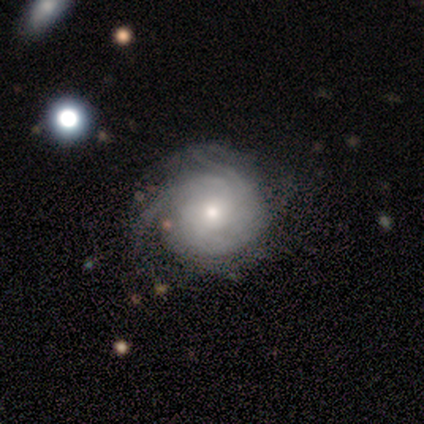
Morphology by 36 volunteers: Smooth or featured?
  - featured or disk: 83% *
  - smooth: 14%
  - star or artifact: 3%
Edge-on disk?
  - no: 97% *
  - yes: 3%
Bar?
  - no: 79% *
  - weak: 17%
  - strong: 3%
Spiral arms?
  - yes: 93% *
  - no: 7%
Spiral winding?
  - tight: 74% *
  - medium: 26%
  - loose: 0%
Spiral arm count?
  - can't tell: 74% *
  - 3: 15%
  - 2: 4%
  - 4: 4%
  - more than 4: 4%
  - 1: 0%
Bulge size?
  - moderate: 55% *
  - small: 41%
  - large: 3%
  - dominant: 0%
  - none: 0%
Merging?
  - none: 66% *
  - minor disturbance: 31%
  - major disturbance: 3%
  - merger: 0%